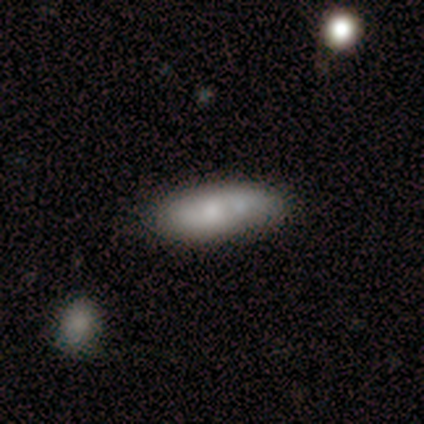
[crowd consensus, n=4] Smooth or featured?
  - smooth: 100% *
  - featured or disk: 0%
  - star or artifact: 0%
How rounded?
  - in between: 75% *
  - cigar-shaped: 25%
  - round: 0%
Merging?
  - minor disturbance: 50% *
  - none: 25%
  - major disturbance: 25%
  - merger: 0%